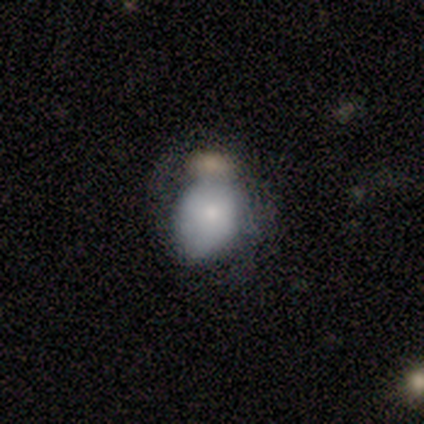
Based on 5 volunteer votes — Q: Smooth or featured?
A: smooth (40%); tied with: star or artifact (40%)
Q: How rounded?
A: round (50%); tied with: in between (50%)
Q: Merging?
A: minor disturbance (67%); runner-up: merger (33%)